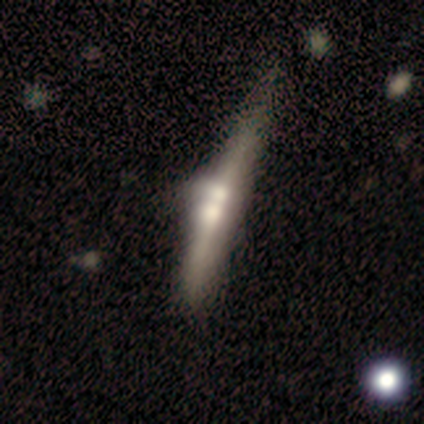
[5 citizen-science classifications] Volunteers were most divided on "edge-on bulge" (2-way tie): boxy: 50%, rounded: 50%, none: 0%. More confident: edge-on disk — yes (100%); smooth or featured — featured or disk (80%); merging — none (60%).